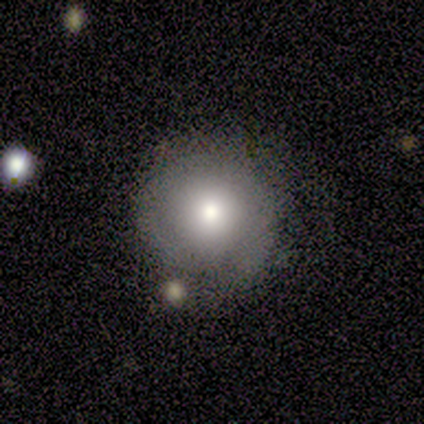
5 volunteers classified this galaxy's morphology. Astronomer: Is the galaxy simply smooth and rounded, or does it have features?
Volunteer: smooth — 40%, tied with featured or disk at 40%.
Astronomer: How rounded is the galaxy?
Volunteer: round — 100%.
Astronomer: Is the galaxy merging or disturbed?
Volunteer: none — 75%.